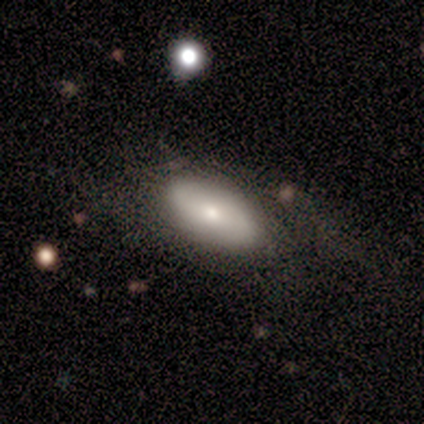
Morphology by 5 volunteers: Smooth or featured: featured or disk — 60% (smooth — 40%)
Edge-on disk: no — 67% (yes — 33%)
Bar: no — 100%
Spiral arms: yes — 100%
Spiral winding: medium — 100%
Spiral arm count: 2 — 100%
Bulge size: moderate — 100%
Merging: none — 60% (minor disturbance — 20%)